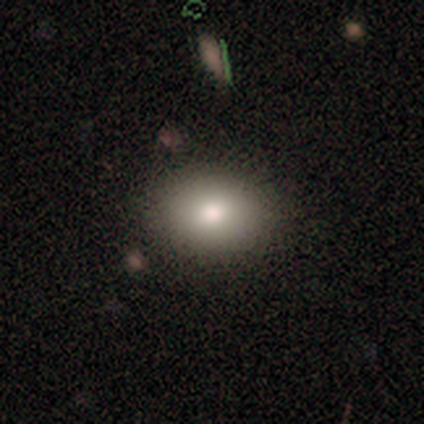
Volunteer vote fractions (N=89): Smooth or featured: smooth — 82% (featured or disk — 11%)
How rounded: in between — 75% (round — 25%)
Merging: none — 82% (minor disturbance — 13%)